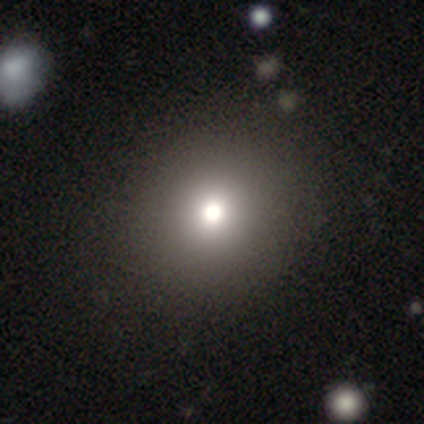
Smooth or featured? smooth (60%)
How rounded? round (67%)
Merging? minor disturbance (67%)